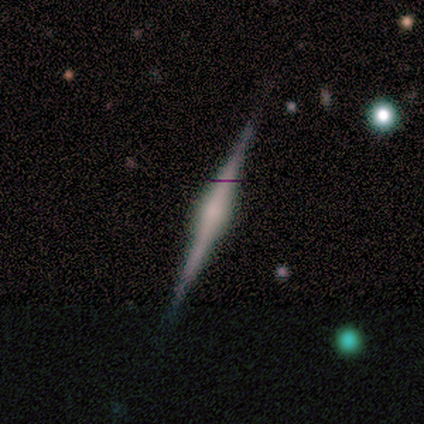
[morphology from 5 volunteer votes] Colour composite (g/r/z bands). It shows a featured or disk galaxy (80%) viewed edge-on (100%) with no central bulge (50%). Merging: none (100%).